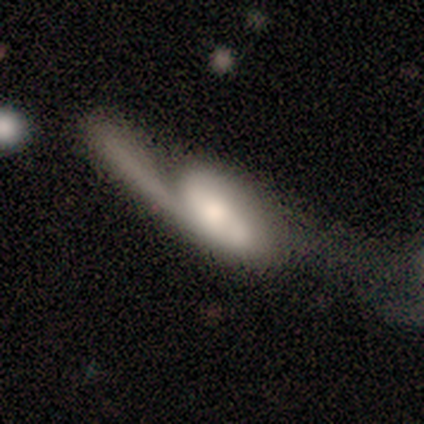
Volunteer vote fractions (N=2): smooth-or-featured: featured or disk: 100% | smooth: 0% | star or artifact: 0%
  disk-edge-on: no: 100% | yes: 0%
    bar: no: 100% | strong: 0% | weak: 0%
    has-spiral-arms: yes: 50% (tied) | no: 50% (tied)
      spiral-winding: loose: 100% | tight: 0% | medium: 0%
      spiral-arm-count: can't tell: 100% | 1: 0% | 2: 0% | 3: 0% | 4: 0% | more than 4: 0%
    bulge-size: large: 50% (tied) | moderate: 50% (tied) | dominant: 0% | small: 0% | none: 0%
  merging: major disturbance: 50% (tied) | merger: 50% (tied) | none: 0% | minor disturbance: 0%